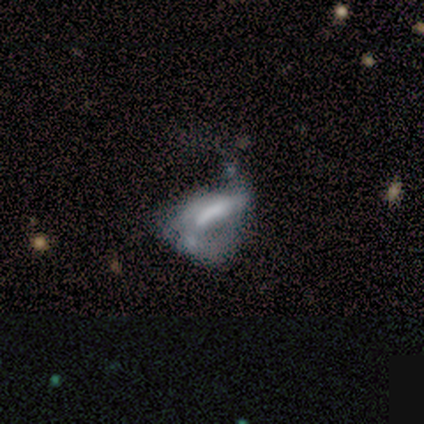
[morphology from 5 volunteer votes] smooth-or-featured: featured or disk: 80% | smooth: 20% | star or artifact: 0%
  disk-edge-on: no: 100% | yes: 0%
    bar: strong: 50% (tied) | no: 50% (tied) | weak: 0%
    has-spiral-arms: yes: 50% (tied) | no: 50% (tied)
      spiral-winding: loose: 100% | tight: 0% | medium: 0%
      spiral-arm-count: 2: 100% | 1: 0% | 3: 0% | 4: 0% | more than 4: 0% | can't tell: 0%
    bulge-size: moderate: 50% (tied) | none: 50% (tied) | dominant: 0% | large: 0% | small: 0%
  merging: major disturbance: 80% | none: 20% | minor disturbance: 0% | merger: 0%